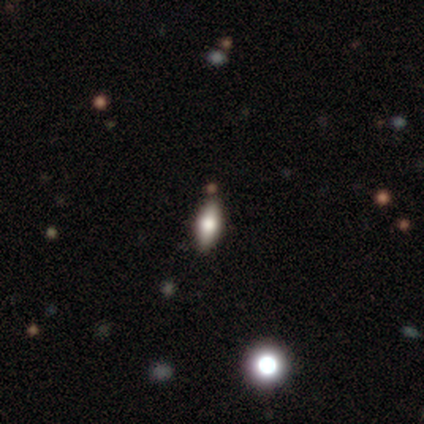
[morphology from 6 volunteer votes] A smooth galaxy with no disk features (83%) that is cigar-shaped (80%).

Vote fractions:
- Smooth or featured? smooth: 83% / featured or disk: 17% / star or artifact: 0%
- How rounded? cigar-shaped: 80% / in between: 20% / round: 0%
- Merging? none: 83% / minor disturbance: 17% / major disturbance: 0% / merger: 0%